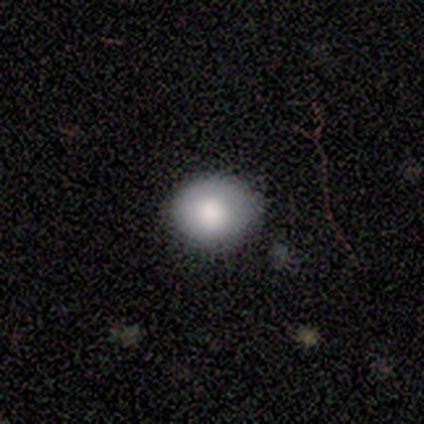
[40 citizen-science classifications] Morphology: type=smooth (80%); roundness=round (66%); merging=none (83%).